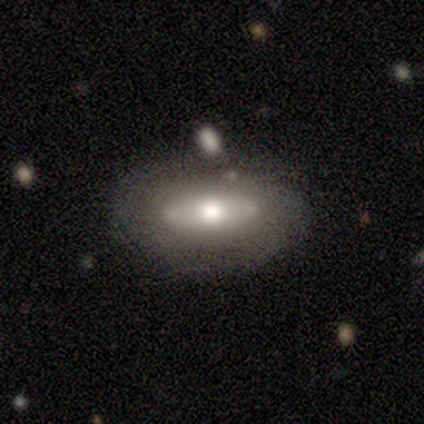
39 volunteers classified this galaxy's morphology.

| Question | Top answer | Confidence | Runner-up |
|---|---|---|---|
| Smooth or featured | smooth | 46% | tied: featured or disk (46%) |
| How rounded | in between | 72% | cigar-shaped (22%) |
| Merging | none | 81% | minor disturbance (11%) |